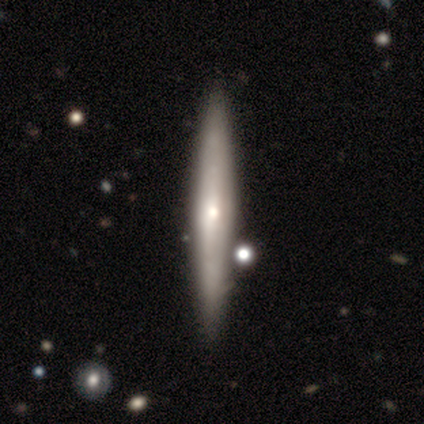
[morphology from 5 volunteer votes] A featured or disk galaxy (80%) viewed edge-on (100%) with a rounded central bulge (75%). Merging: none (100%).